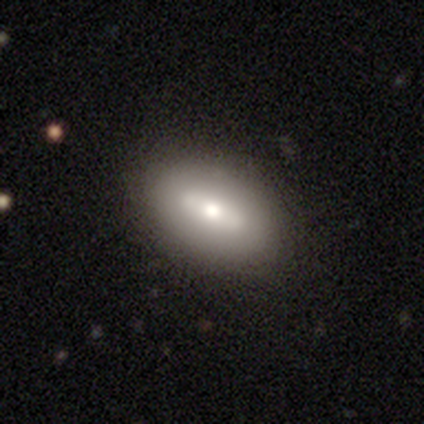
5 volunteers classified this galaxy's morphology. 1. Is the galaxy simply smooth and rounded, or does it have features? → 100% smooth, 0% featured or disk, 0% star or artifact.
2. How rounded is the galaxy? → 80% in between, 20% cigar-shaped, 0% round.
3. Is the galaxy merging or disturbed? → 80% none, 20% minor disturbance, 0% major disturbance, 0% merger.